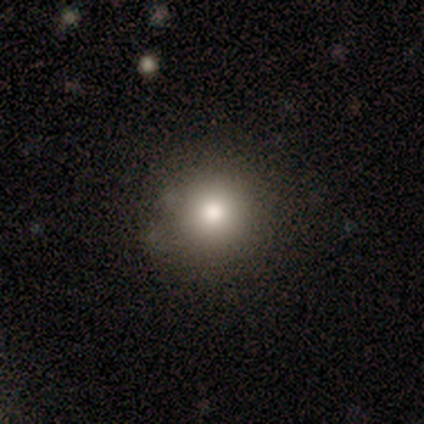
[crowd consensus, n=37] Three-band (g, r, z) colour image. It shows a smooth galaxy with no disk features (70%) that is round (92%). Merging: none (87%).